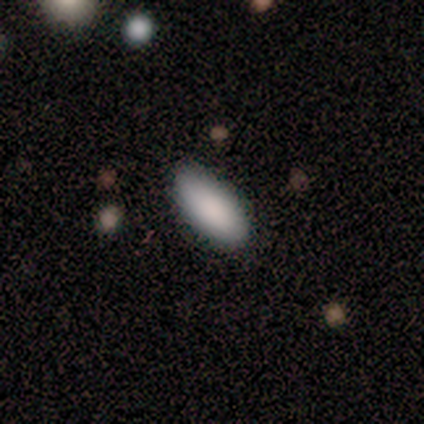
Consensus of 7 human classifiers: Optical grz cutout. It shows a smooth galaxy with no disk features (100%) that is in between round and cigar-shaped (100%). Merging: none (100%).